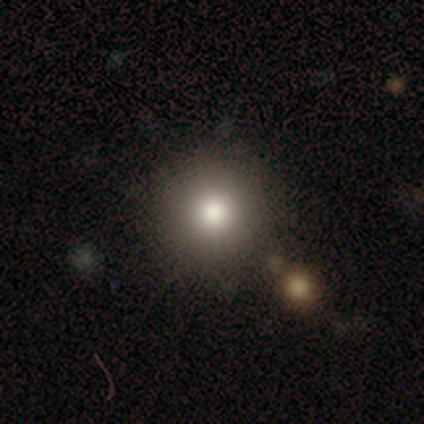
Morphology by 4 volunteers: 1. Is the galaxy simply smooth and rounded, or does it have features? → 50% smooth (tied), 50% star or artifact (tied), 0% featured or disk.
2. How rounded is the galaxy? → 100% round, 0% in between, 0% cigar-shaped.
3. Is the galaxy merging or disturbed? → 50% none (tied), 50% major disturbance (tied), 0% minor disturbance, 0% merger.